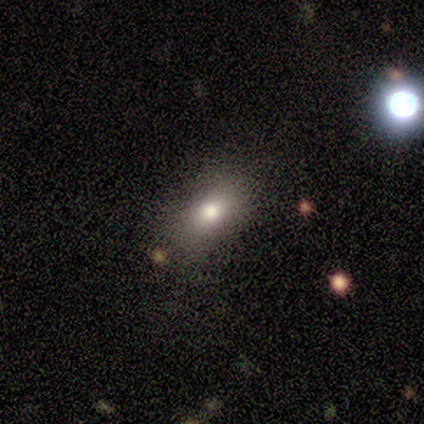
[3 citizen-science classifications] Volunteers were most divided on "how rounded" (2-way tie): round: 50%, in between: 50%, cigar-shaped: 0%. More confident: smooth or featured — smooth (67%); merging — none (67%).